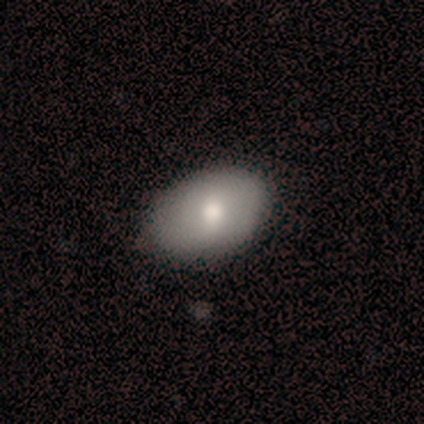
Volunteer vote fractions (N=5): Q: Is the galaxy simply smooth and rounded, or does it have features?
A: smooth — 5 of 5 (100%).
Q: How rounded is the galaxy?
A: in between — 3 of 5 (60%).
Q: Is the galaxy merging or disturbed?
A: none — 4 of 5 (80%).